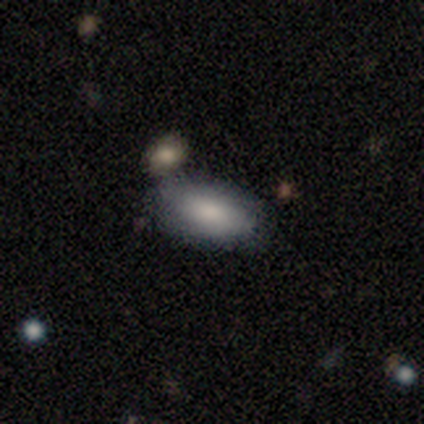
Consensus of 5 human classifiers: Morphology: type=smooth (80%); roundness=in between (100%); merging=none (100%).